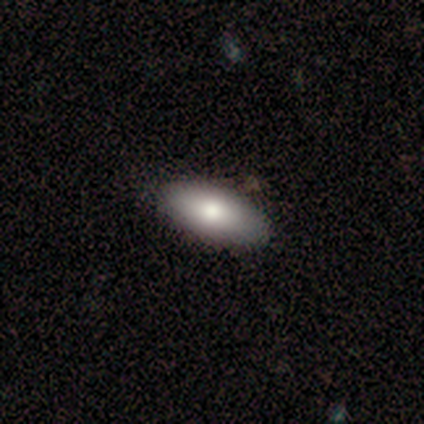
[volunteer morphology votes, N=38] Volunteers were most divided on "merging": none: 70%, minor disturbance: 11%, merger: 5%, major disturbance: 0%. More confident: how rounded — in between (91%); smooth or featured — smooth (84%).